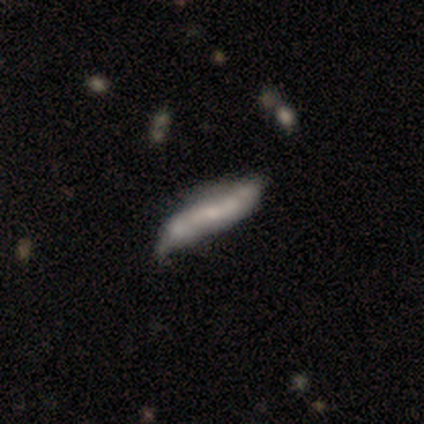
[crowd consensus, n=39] smooth_or_featured: featured or disk (p=0.69) [alt: smooth p=0.26]
disk_edge_on: no (p=0.67) [alt: yes p=0.33]
bar: no (p=0.72) [alt: weak p=0.28]
has_spiral_arms: no (p=0.61) [alt: yes p=0.39]
bulge_size: small (p=0.44) [tied with: none p=0.44]
merging: none (p=0.43) [alt: minor disturbance p=0.24]